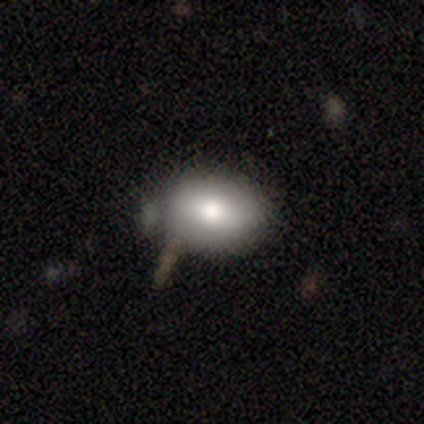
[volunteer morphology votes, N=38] smooth 66%, featured or disk 18%, star or artifact 16%. Down the decision tree: how rounded — in between (64%); merging — none (66%).